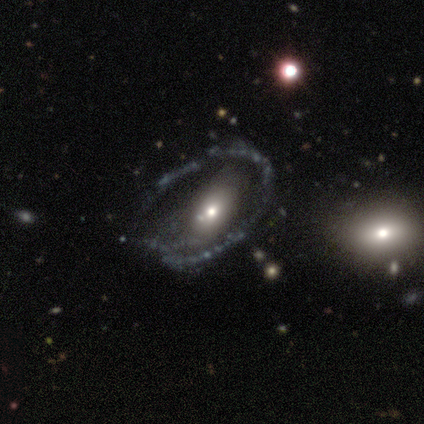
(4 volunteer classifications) Smooth or featured: featured or disk — 75% (smooth — 25%)
Edge-on disk: no — 100%
Bar: no — 100%
Spiral arms: no — 67% (yes — 33%)
Bulge size: moderate — 33% (tied with small — 33%; none — 33%)
Merging: none — 75% (minor disturbance — 25%)